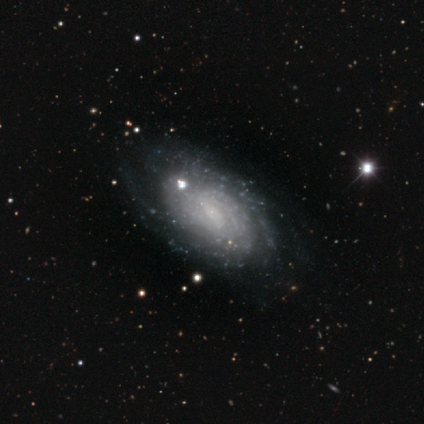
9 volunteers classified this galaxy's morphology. type=featured or disk (78%); edge-on=no (100%); bar=no (71%); spiral arms=yes (100%); winding=tight (57%); arm count=can't tell (71%); bulge=small (57%); merging=none (75%).